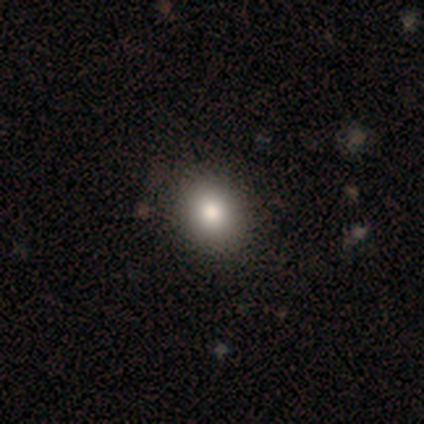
A smooth galaxy with no disk features (90%) that is round (50%, tied with in between).

Vote fractions:
- Smooth or featured? smooth: 90% / star or artifact: 8% / featured or disk: 2%
- How rounded? round: 50% (tied) / in between: 50% (tied) / cigar-shaped: 0%
- Merging? none: 86% / minor disturbance: 8% / major disturbance: 0% / merger: 0%